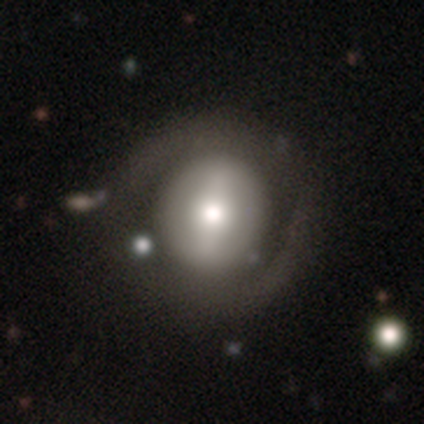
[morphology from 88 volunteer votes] Smooth or featured? 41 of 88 (47%) said featured or disk. Edge-on disk? 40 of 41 (98%) said no. Bar? 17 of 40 (42%) said strong. Spiral arms? 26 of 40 (65%) said no. Bulge size? 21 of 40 (52%) said moderate. Merging? 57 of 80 (71%) said none.